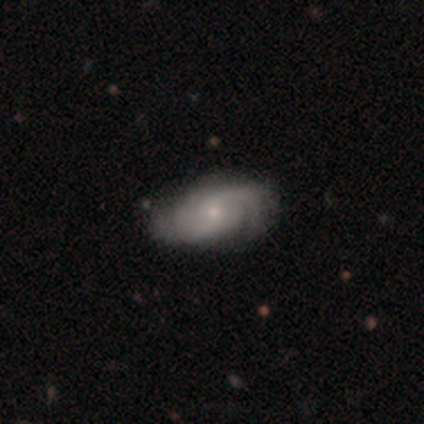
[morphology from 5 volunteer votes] Volunteers were most divided on "spiral winding": tight: 60%, medium: 40%, loose: 0%. More confident: smooth or featured — featured or disk (100%); edge-on disk — no (100%); spiral arms — yes (100%); spiral arm count — 2 (100%); bar — no (80%); bulge size — small (80%); merging — none (80%).